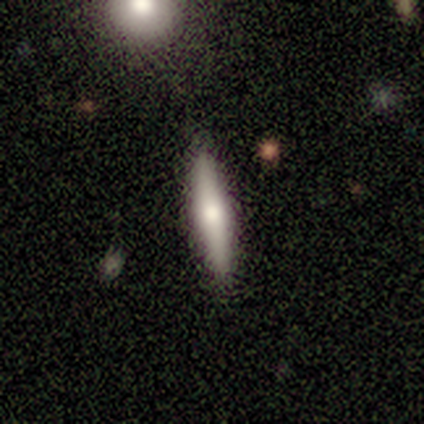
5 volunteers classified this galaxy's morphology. This appears to be a smooth galaxy with no disk features (80%) that is cigar-shaped (75%). Merging: none (60%).